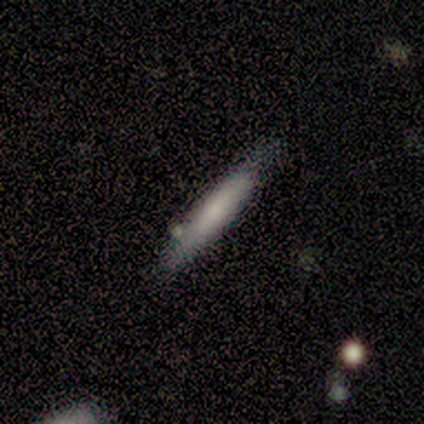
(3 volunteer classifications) Smooth or featured?
  - smooth: 100% *
  - featured or disk: 0%
  - star or artifact: 0%
How rounded?
  - cigar-shaped: 100% *
  - round: 0%
  - in between: 0%
Merging?
  - none: 100% *
  - minor disturbance: 0%
  - major disturbance: 0%
  - merger: 0%